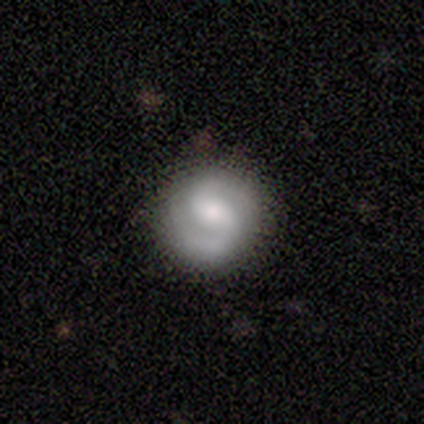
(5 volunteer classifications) smooth_or_featured: featured or disk (p=1.00)
disk_edge_on: no (p=1.00)
bar: strong (p=0.40) [tied with: no p=0.40]
has_spiral_arms: yes (p=1.00)
spiral_winding: medium (p=1.00)
spiral_arm_count: 2 (p=1.00)
bulge_size: moderate (p=0.40) [tied with: small p=0.40]
merging: none (p=1.00)